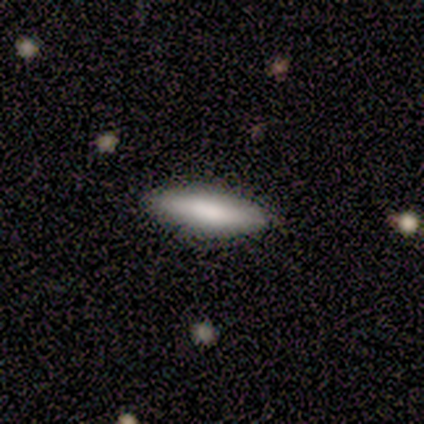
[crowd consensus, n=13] Morphology: type=smooth (85%); roundness=cigar-shaped (55%); merging=none (100%).